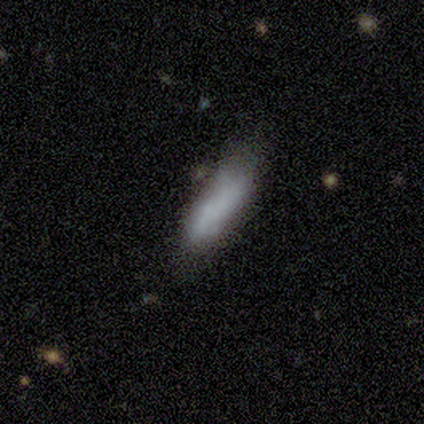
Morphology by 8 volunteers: type=smooth (88%); roundness=cigar-shaped (71%); merging=none (57%).